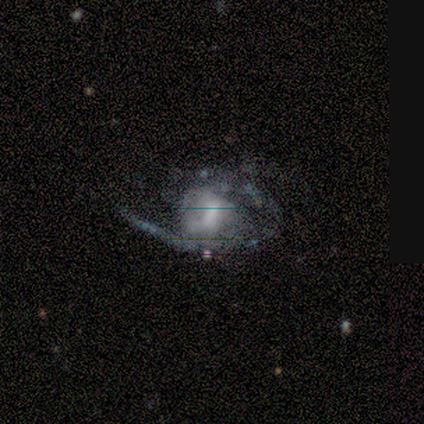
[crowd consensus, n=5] This appears to be a featured or disk galaxy (80%) with no bar (75%), 2 (100%) medium (50%) spiral arms (100%) and a moderate central bulge (50%, tied with small). Merging: major disturbance (50%).